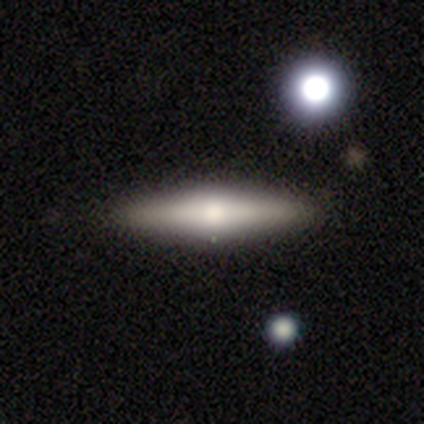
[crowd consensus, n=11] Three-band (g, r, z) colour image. It shows a featured or disk galaxy (73%) viewed edge-on (100%) with a rounded central bulge (100%). Merging: none (91%).